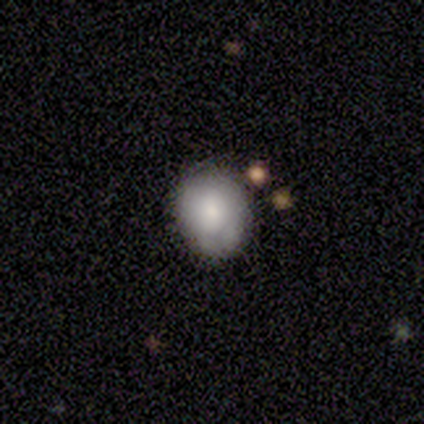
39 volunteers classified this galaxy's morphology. A smooth galaxy with no disk features (79%) that is round (58%).

Vote fractions:
- Smooth or featured? smooth: 79% / featured or disk: 15% / star or artifact: 5%
- How rounded? round: 58% / in between: 42% / cigar-shaped: 0%
- Merging? none: 57% / minor disturbance: 35% / merger: 8% / major disturbance: 0%